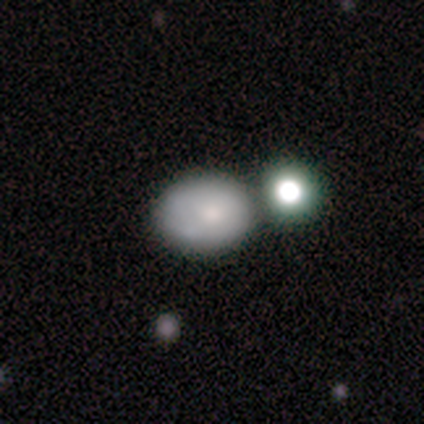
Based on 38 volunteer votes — smooth_or_featured: smooth (p=0.68) [alt: featured or disk p=0.24]
how_rounded: in between (p=0.77) [alt: round p=0.23]
merging: none (p=0.57) [alt: merger p=0.34]